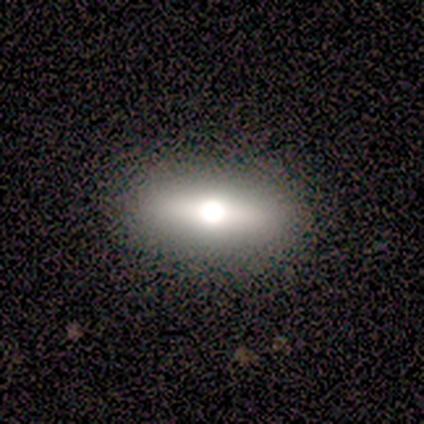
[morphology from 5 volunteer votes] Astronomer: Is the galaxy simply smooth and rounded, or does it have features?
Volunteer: smooth — 60%.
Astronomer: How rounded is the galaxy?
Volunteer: cigar-shaped — 67%.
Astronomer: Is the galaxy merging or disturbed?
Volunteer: none — 75%.